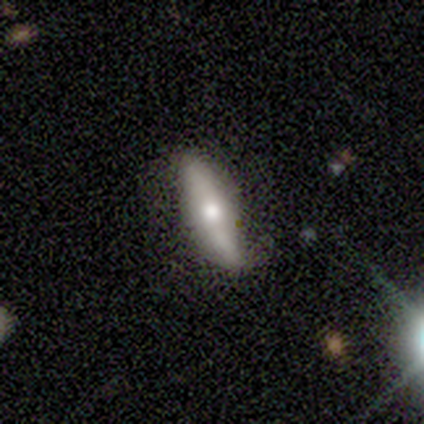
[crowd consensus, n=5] This appears to be a featured or disk galaxy (100%) with no bar (67%), 2 (100%) loose (100%) spiral arms (67%) and a moderate central bulge (67%). Merging: none (60%).